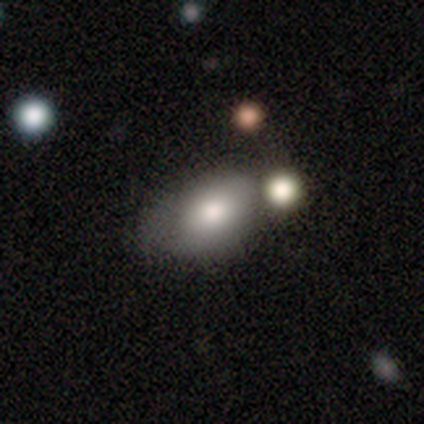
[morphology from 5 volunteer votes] smooth_or_featured: smooth (p=0.80) [alt: star or artifact p=0.20]
how_rounded: in between (p=1.00)
merging: none (p=0.25) [tied with: minor disturbance p=0.25, major disturbance p=0.25, merger p=0.25]